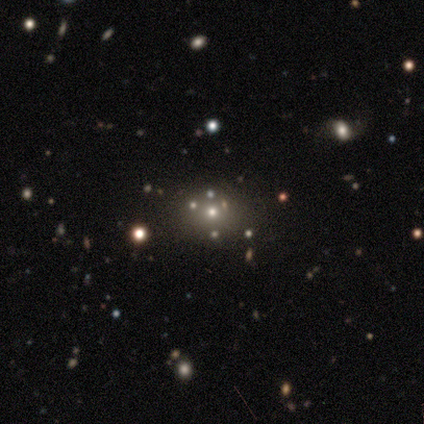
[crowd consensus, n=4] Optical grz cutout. It shows a smooth galaxy with no disk features (50%) that is round (50%, tied with in between). Merging: none (100%).